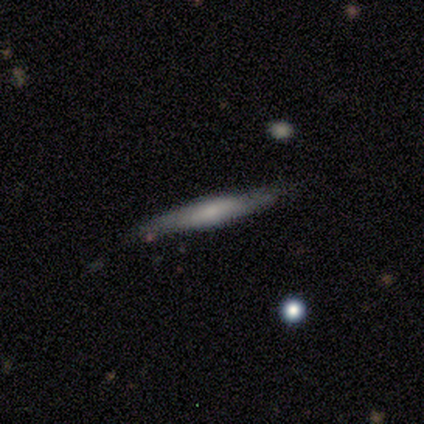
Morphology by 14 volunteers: smooth-or-featured: smooth: 57% | featured or disk: 43% | star or artifact: 0%
  how-rounded: cigar-shaped: 88% | in between: 12% | round: 0%
  merging: none: 86% | merger: 14% | minor disturbance: 0% | major disturbance: 0%